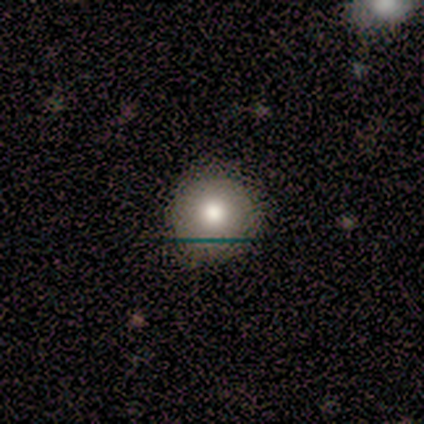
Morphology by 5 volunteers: Overall: smooth (60%; featured or disk 40%). How rounded: round (100%). Merging: none (80%).